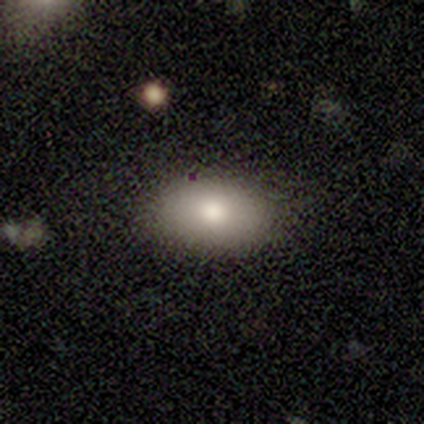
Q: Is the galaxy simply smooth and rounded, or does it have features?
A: smooth — 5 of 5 (100%).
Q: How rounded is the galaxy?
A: in between — 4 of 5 (80%).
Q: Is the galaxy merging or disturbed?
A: none — 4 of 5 (80%).